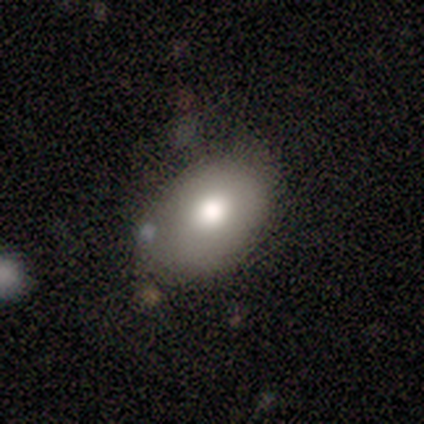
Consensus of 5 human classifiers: Volunteers were most divided on "how rounded": in between: 67%, round: 33%, cigar-shaped: 0%. More confident: merging — none (75%); smooth or featured — smooth (60%).